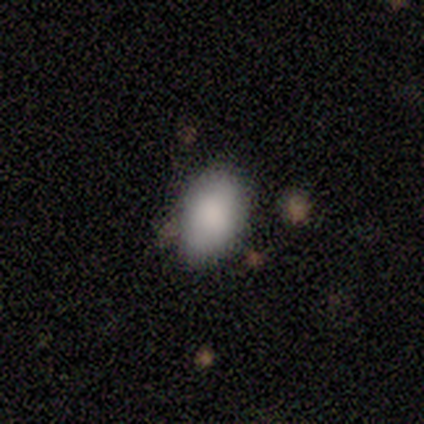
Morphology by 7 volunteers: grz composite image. It shows a smooth galaxy with no disk features (100%) that is in between round and cigar-shaped (100%). Merging: none (86%).